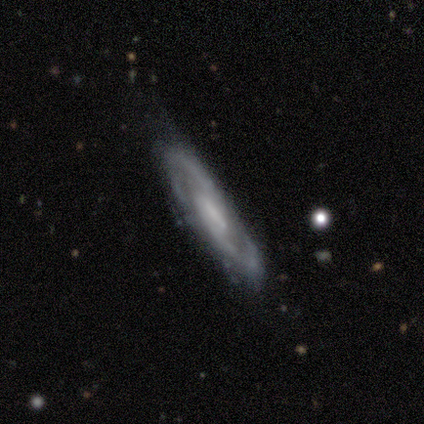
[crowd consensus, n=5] Q: Smooth or featured?
A: featured or disk (100%)
Q: Edge-on disk?
A: no (100%)
Q: Bar?
A: weak (80%); runner-up: no (20%)
Q: Spiral arms?
A: yes (100%)
Q: Spiral winding?
A: medium (80%); runner-up: loose (20%)
Q: Spiral arm count?
A: 2 (80%); runner-up: can't tell (20%)
Q: Bulge size?
A: small (40%); tied with: none (40%)
Q: Merging?
A: minor disturbance (60%); runner-up: none (40%)